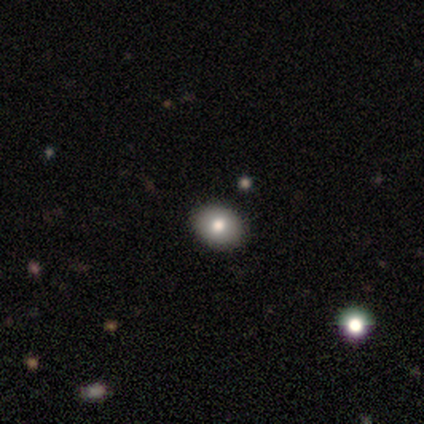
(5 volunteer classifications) Morphology: type=smooth (80%); roundness=in between (75%); merging=none (80%).